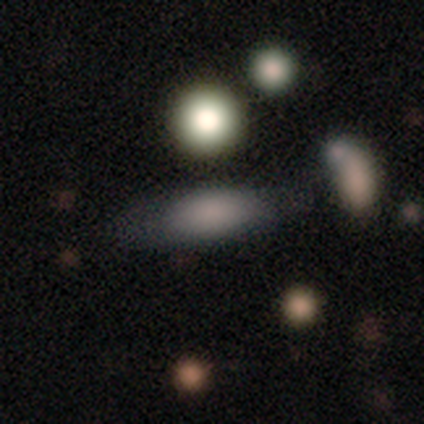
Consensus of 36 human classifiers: Smooth or featured? 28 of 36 (78%) said smooth. How rounded? 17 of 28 (61%) said in between. Merging? 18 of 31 (58%) said none.